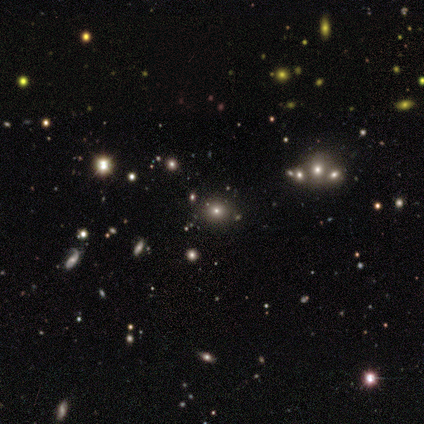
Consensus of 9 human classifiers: This appears to be a star or artifact, not a galaxy (67%).